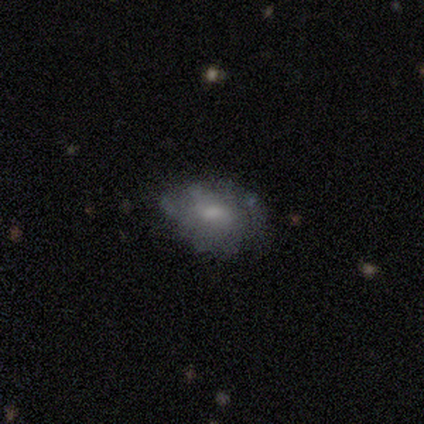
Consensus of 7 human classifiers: Smooth or featured? featured or disk (71%)
Edge-on disk? no (100%)
Bar? no (60%)
Spiral arms? yes (100%)
Spiral winding? medium (40%, tied with loose)
Spiral arm count? can't tell (60%)
Bulge size? small (40%)
Merging? none (43%, tied with minor disturbance)